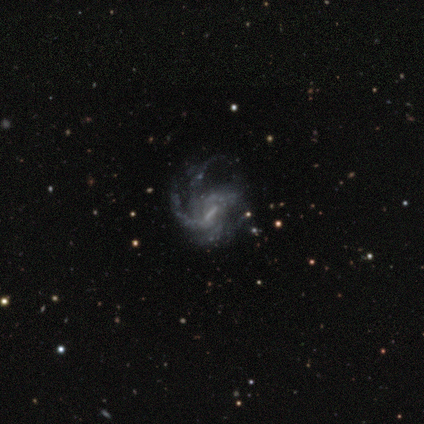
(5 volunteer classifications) smooth_or_featured: featured or disk (p=1.00)
disk_edge_on: no (p=1.00)
bar: weak (p=0.60) [alt: strong p=0.40]
has_spiral_arms: yes (p=1.00)
spiral_winding: loose (p=0.60) [alt: tight p=0.20]
spiral_arm_count: 2 (p=0.40) [tied with: can't tell p=0.40]
bulge_size: moderate (p=0.60) [alt: small p=0.20]
merging: none (p=0.60) [alt: minor disturbance p=0.40]